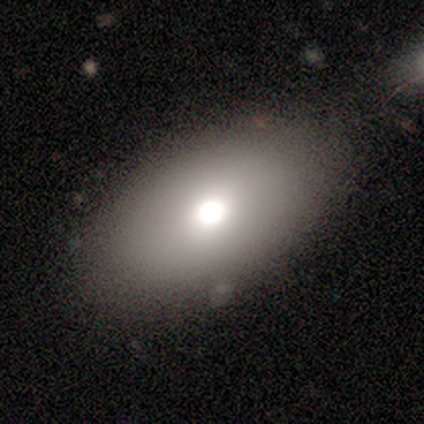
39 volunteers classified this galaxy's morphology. Smooth or featured? smooth (69%)
How rounded? in between (96%)
Merging? none (95%)